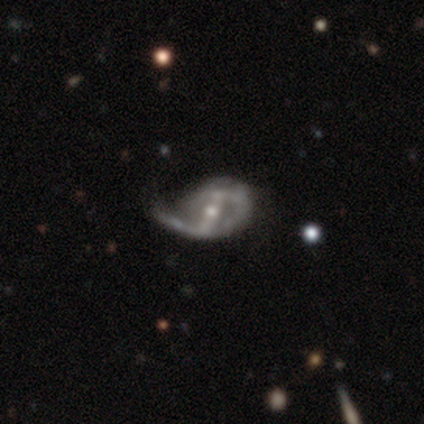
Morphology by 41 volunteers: type=featured or disk (85%); edge-on=no (89%); bar=strong (68%); spiral arms=yes (87%); winding=medium (44%, tied with loose); arm count=2 (52%); bulge=moderate (58%); merging=none (38%).